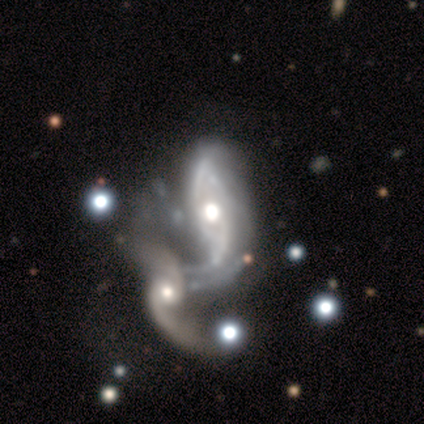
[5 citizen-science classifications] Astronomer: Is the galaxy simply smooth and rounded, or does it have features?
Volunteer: featured or disk — 80%.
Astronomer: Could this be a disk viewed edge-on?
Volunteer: no — 100%.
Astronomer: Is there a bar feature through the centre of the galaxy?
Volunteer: no — 75%.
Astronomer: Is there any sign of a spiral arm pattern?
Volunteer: yes — 100%.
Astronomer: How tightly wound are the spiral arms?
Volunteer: loose — 75%.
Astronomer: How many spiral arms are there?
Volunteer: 2 — 75%.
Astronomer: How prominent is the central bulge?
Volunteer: moderate — 100%.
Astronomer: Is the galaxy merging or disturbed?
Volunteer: major disturbance — 40%, tied with merger at 40%.